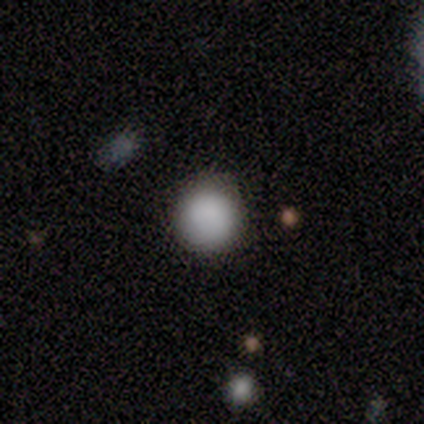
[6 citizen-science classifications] smooth 67%, featured or disk 17%, star or artifact 17%. Down the decision tree: how rounded — round (50%); merging — none (40%, tied with minor disturbance).